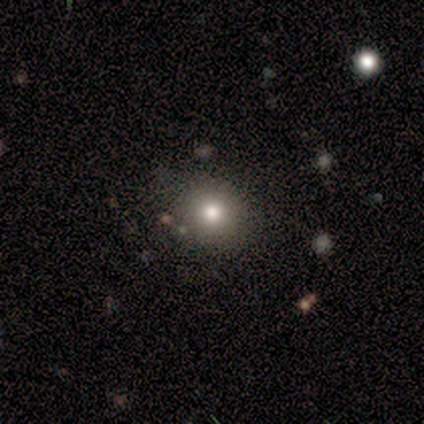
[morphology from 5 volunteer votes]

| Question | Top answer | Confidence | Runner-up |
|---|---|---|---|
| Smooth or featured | smooth | 60% | featured or disk (40%) |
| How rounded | round | 100% | — |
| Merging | none | 40% | tied: minor disturbance (40%) |